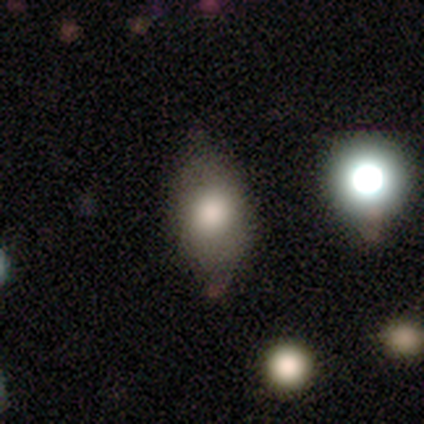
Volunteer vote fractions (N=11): smooth 91%, featured or disk 9%, star or artifact 0%. Down the decision tree: how rounded — in between (60%); merging — none (64%).